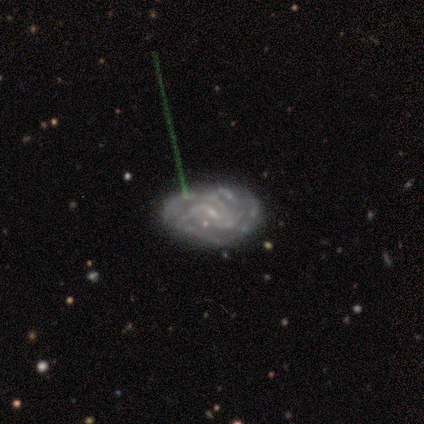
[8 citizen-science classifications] Smooth or featured: featured or disk — 100%
Edge-on disk: no — 100%
Bar: weak — 50% (no — 38%)
Spiral arms: yes — 88% (no — 12%)
Spiral winding: tight — 43% (medium — 29%)
Spiral arm count: 3 — 43% (can't tell — 29%)
Bulge size: small — 62% (none — 25%)
Merging: none — 50% (minor disturbance — 38%)